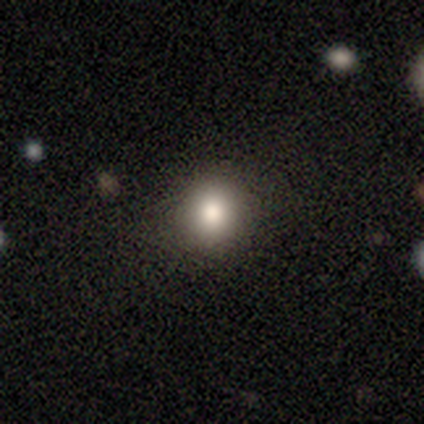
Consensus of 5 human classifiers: Smooth or featured? 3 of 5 (60%) said smooth. How rounded? 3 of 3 (100%) said round. Merging? 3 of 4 (75%) said none.